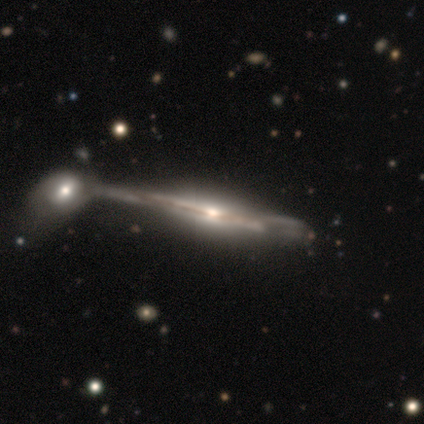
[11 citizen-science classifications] A featured or disk galaxy (91%) viewed edge-on (100%) with a rounded central bulge (90%). Merging: none (40%, tied with merger).